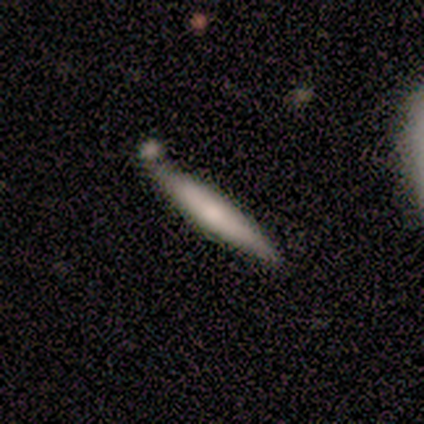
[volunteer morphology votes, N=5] Smooth or featured? 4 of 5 (80%) said smooth. How rounded? 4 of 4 (100%) said cigar-shaped. Merging? 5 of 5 (100%) said none.